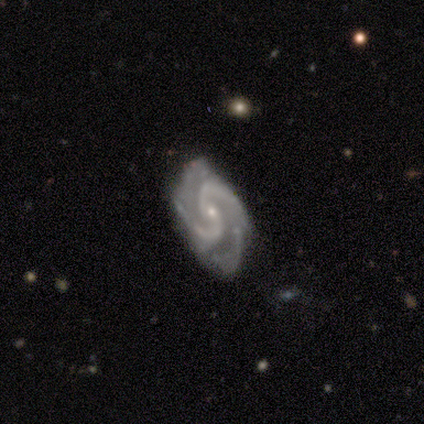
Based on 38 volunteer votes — Smooth or featured? featured or disk (92%)
Edge-on disk? no (100%)
Bar? no (63%)
Spiral arms? yes (97%)
Spiral winding? medium (68%)
Spiral arm count? 2 (71%)
Bulge size? small (86%)
Merging? none (67%)